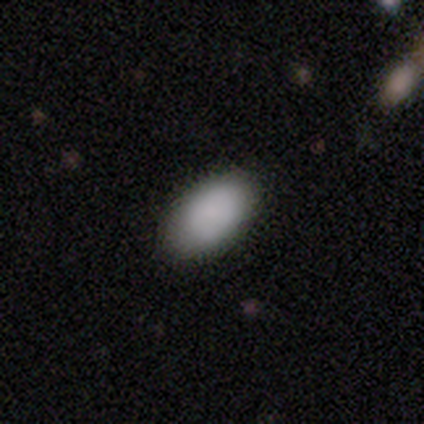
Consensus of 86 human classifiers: A smooth galaxy with no disk features (91%) that is in between round and cigar-shaped (99%).

Vote fractions:
- Smooth or featured? smooth: 91% / star or artifact: 6% / featured or disk: 3%
- How rounded? in between: 99% / round: 1% / cigar-shaped: 0%
- Merging? none: 86% / minor disturbance: 12% / major disturbance: 1% / merger: 0%